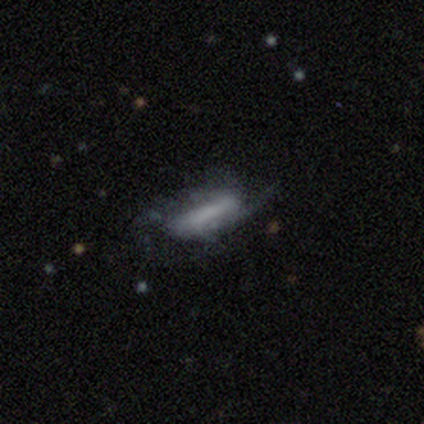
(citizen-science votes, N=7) smooth_or_featured: featured or disk (p=0.57) [alt: smooth p=0.43]
disk_edge_on: no (p=0.75) [alt: yes p=0.25]
bar: strong (p=0.67) [alt: weak p=0.33]
has_spiral_arms: yes (p=0.67) [alt: no p=0.33]
spiral_winding: medium (p=1.00)
spiral_arm_count: 2 (p=0.50) [tied with: can't tell p=0.50]
bulge_size: large (p=0.33) [tied with: moderate p=0.33, small p=0.33]
merging: none (p=0.43) [tied with: major disturbance p=0.43]